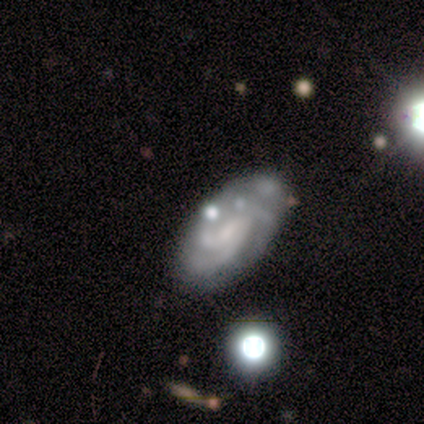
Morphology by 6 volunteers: Volunteers were most divided on "bulge size" (2-way tie): moderate: 40%, small: 40%, none: 20%, dominant: 0%, large: 0%; "merging" (2-way tie): none: 33%, minor disturbance: 33%, major disturbance: 17%, merger: 17%. More confident: edge-on disk — no (100%); smooth or featured — featured or disk (83%); bar — no (80%); spiral arms — yes (80%); spiral arm count — 3 (75%); spiral winding — tight (50%).